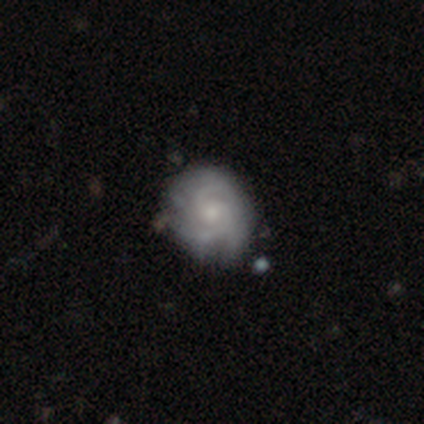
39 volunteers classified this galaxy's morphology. Smooth or featured? 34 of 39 (87%) said featured or disk. Edge-on disk? 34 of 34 (100%) said no. Bar? 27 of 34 (79%) said no. Spiral arms? 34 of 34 (100%) said yes. Spiral winding? 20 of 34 (59%) said tight. Spiral arm count? 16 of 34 (47%) said 2. Bulge size? 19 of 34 (56%) said small. Merging? 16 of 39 (41%) said none.